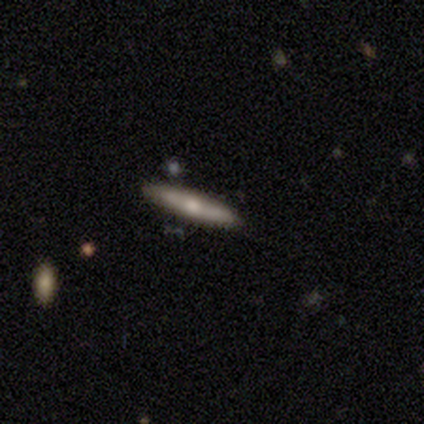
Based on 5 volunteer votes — A smooth galaxy with no disk features (60%) that is cigar-shaped (100%).

Vote fractions:
- Smooth or featured? smooth: 60% / featured or disk: 40% / star or artifact: 0%
- How rounded? cigar-shaped: 100% / round: 0% / in between: 0%
- Merging? none: 100% / minor disturbance: 0% / major disturbance: 0% / merger: 0%